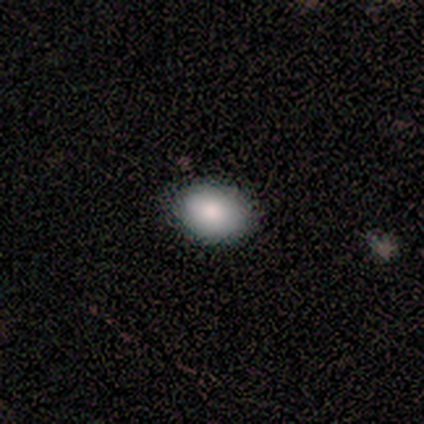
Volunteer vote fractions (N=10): Smooth or featured?
  - smooth: 90% *
  - featured or disk: 10%
  - star or artifact: 0%
How rounded?
  - in between: 78% *
  - round: 22%
  - cigar-shaped: 0%
Merging?
  - none: 90% *
  - minor disturbance: 10%
  - major disturbance: 0%
  - merger: 0%